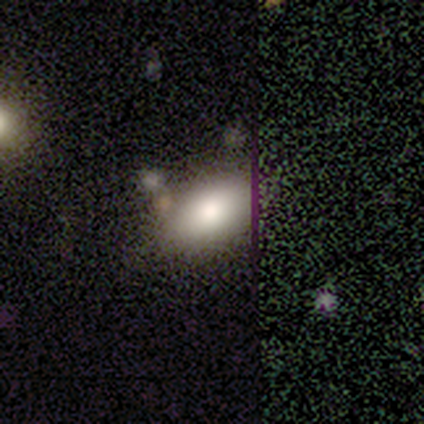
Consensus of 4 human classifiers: A smooth galaxy with no disk features (50%) that is in between round and cigar-shaped (100%).

Vote fractions:
- Smooth or featured? smooth: 50% / featured or disk: 25% / star or artifact: 25%
- How rounded? in between: 100% / round: 0% / cigar-shaped: 0%
- Merging? none: 67% / minor disturbance: 33% / major disturbance: 0% / merger: 0%